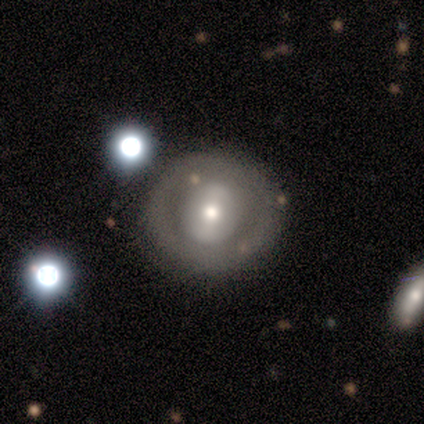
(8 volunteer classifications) Volunteers were most divided on "smooth or featured" (2-way tie): smooth: 50%, featured or disk: 50%, star or artifact: 0%; "how rounded" (2-way tie): round: 50%, in between: 50%, cigar-shaped: 0%. More confident: merging — none (75%).